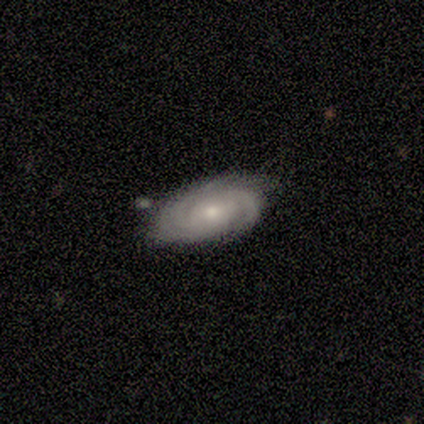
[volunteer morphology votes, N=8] type=featured or disk (100%); edge-on=no (100%); bar=no (62%); spiral arms=yes (100%); winding=tight (75%); arm count=can't tell (50%); bulge=small (75%); merging=none (75%).